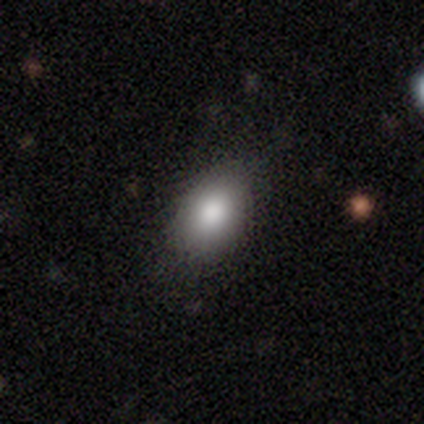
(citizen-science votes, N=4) smooth 50%, featured or disk 25%, star or artifact 25%. Down the decision tree: how rounded — round (100%); merging — none (100%).